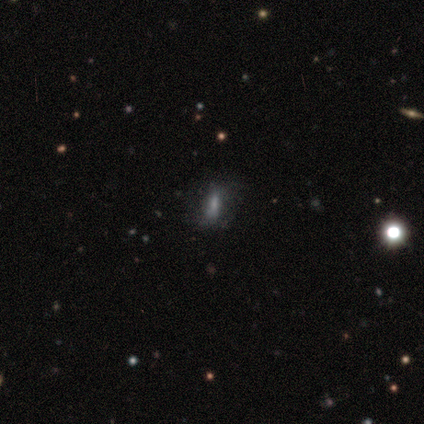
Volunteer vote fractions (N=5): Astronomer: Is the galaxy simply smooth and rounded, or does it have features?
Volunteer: smooth — 60%.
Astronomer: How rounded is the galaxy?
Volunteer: in between — 67%.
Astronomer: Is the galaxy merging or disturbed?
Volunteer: none — 75%.